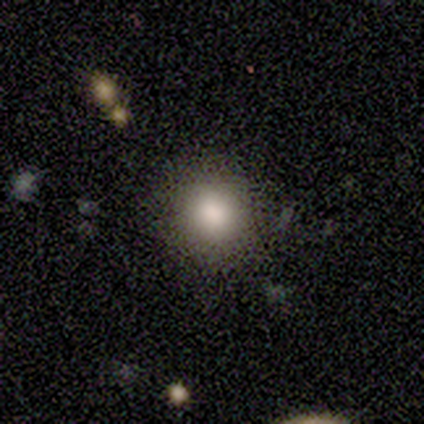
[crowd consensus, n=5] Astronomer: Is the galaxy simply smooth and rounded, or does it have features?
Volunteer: smooth — 100%.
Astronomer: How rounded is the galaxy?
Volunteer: round — 100%.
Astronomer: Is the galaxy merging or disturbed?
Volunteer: none — 100%.